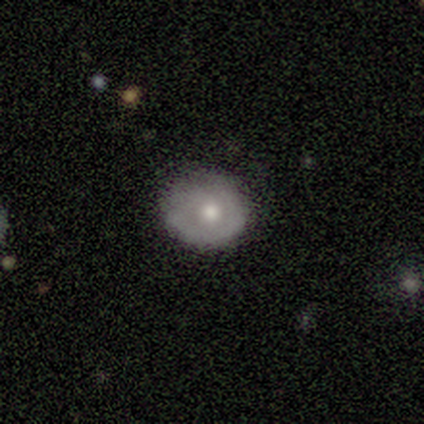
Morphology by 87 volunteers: Volunteers were most divided on "smooth or featured": smooth: 59%, featured or disk: 34%, star or artifact: 7%. More confident: merging — none (78%); how rounded — round (76%).